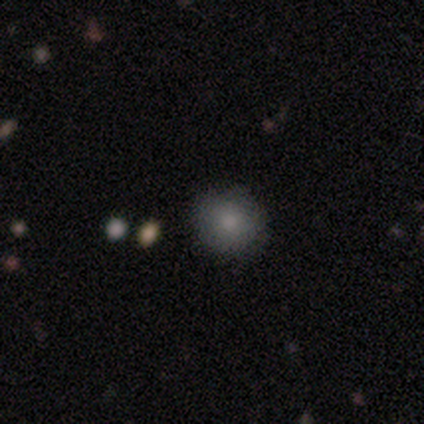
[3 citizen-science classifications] Smooth or featured? smooth (100%)
How rounded? round (100%)
Merging? none (100%)